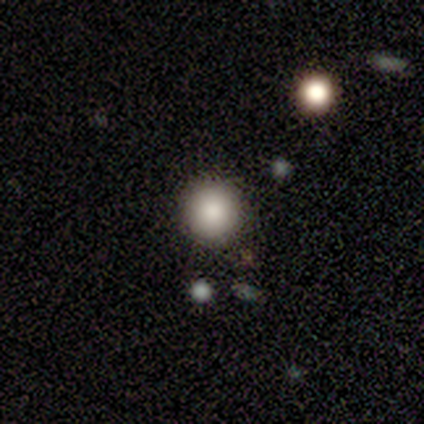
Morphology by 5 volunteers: Smooth or featured? 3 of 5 (60%) said smooth. How rounded? 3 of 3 (100%) said round. Merging? 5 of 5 (100%) said none.